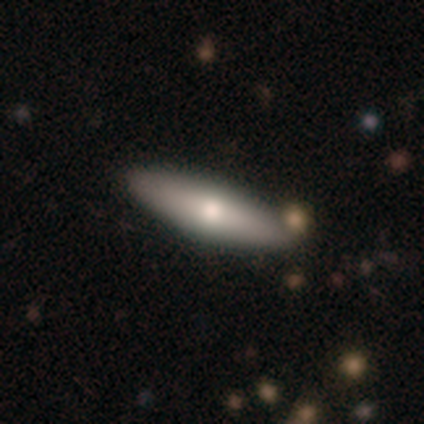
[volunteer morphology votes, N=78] Smooth or featured? 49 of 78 (63%) said smooth. How rounded? 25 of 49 (51%) said in between. Merging? 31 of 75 (41%) said none.